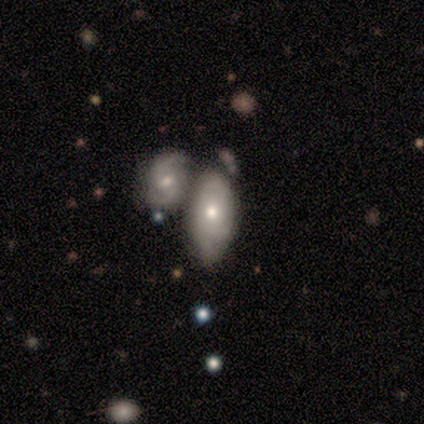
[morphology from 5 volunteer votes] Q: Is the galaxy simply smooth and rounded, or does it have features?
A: featured or disk — 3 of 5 (60%).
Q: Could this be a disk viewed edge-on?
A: no — 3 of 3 (100%).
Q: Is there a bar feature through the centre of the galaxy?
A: no — 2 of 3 (67%).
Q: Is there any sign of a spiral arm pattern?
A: no — 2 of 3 (67%).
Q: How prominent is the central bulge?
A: moderate — 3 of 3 (100%).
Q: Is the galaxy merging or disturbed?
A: merger — 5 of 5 (100%).